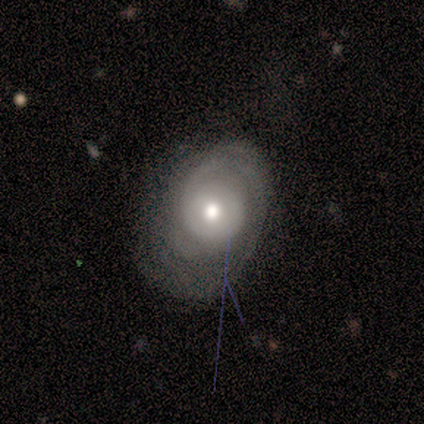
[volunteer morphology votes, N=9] smooth_or_featured: featured or disk (p=1.00)
disk_edge_on: no (p=1.00)
bar: no (p=1.00)
has_spiral_arms: yes (p=0.89) [alt: no p=0.11]
spiral_winding: tight (p=1.00)
spiral_arm_count: can't tell (p=0.75) [alt: 1 p=0.12]
bulge_size: moderate (p=0.89) [alt: large p=0.11]
merging: none (p=0.33) [tied with: minor disturbance p=0.33, major disturbance p=0.33]